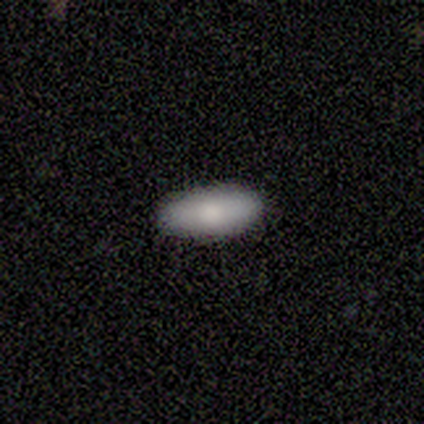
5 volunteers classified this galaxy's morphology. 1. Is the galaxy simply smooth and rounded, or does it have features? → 100% smooth, 0% featured or disk, 0% star or artifact.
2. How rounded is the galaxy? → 100% in between, 0% round, 0% cigar-shaped.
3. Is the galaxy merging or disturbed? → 100% none, 0% minor disturbance, 0% major disturbance, 0% merger.